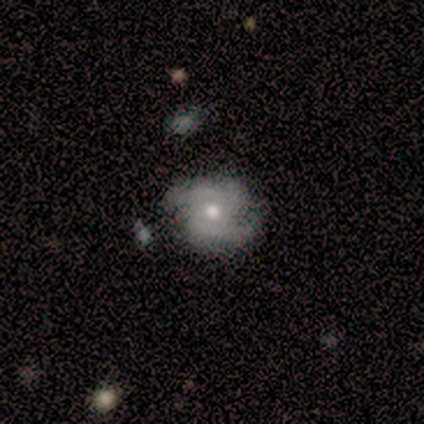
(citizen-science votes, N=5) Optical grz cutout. It shows a featured or disk galaxy (80%) with no bar (100%), 2 (100%) tight (67%) spiral arms (75%) and a moderate central bulge (75%). Merging: minor disturbance (60%).